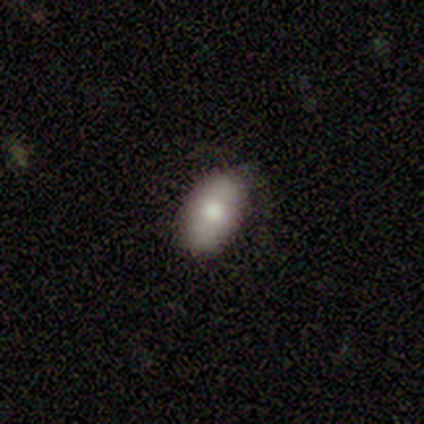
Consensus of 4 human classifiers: This appears to be a smooth galaxy with no disk features (50%, tied with featured or disk) that is in between round and cigar-shaped (100%). Merging: none (75%).